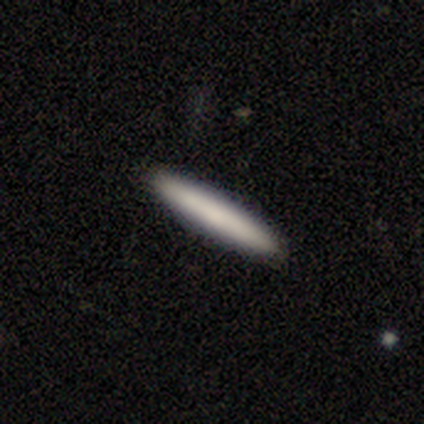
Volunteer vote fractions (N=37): smooth_or_featured: smooth (p=0.73) [alt: featured or disk p=0.22]
how_rounded: cigar-shaped (p=0.96) [alt: in between p=0.04]
merging: none (p=0.94) [alt: minor disturbance p=0.03]